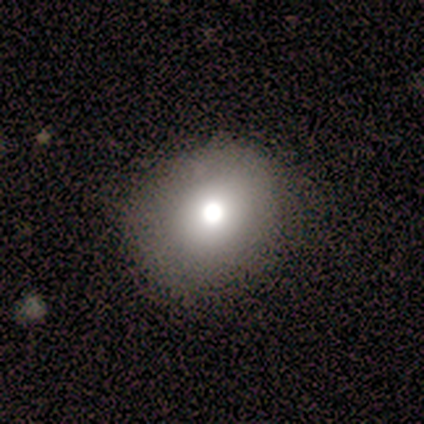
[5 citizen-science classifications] Q: Smooth or featured?
A: smooth (100%)
Q: How rounded?
A: in between (80%); runner-up: round (20%)
Q: Merging?
A: none (60%); runner-up: minor disturbance (20%)